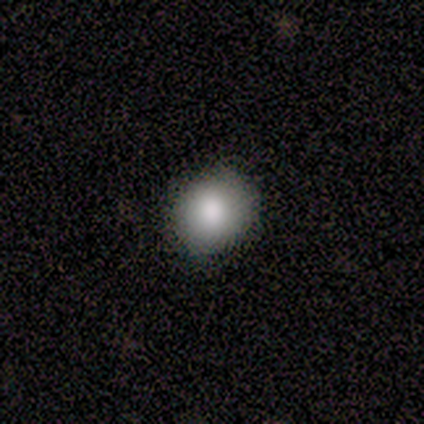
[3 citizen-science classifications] Overall: smooth (100%). How rounded: round (67%; in between 33%). Merging: none (100%).